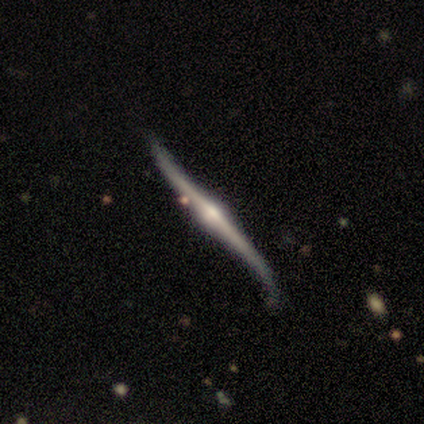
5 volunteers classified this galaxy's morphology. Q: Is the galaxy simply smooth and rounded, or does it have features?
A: featured or disk — 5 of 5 (100%).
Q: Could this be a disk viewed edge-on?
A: yes — 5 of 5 (100%).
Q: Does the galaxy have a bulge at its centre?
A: rounded — 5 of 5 (100%).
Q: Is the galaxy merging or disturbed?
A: minor disturbance — 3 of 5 (60%).